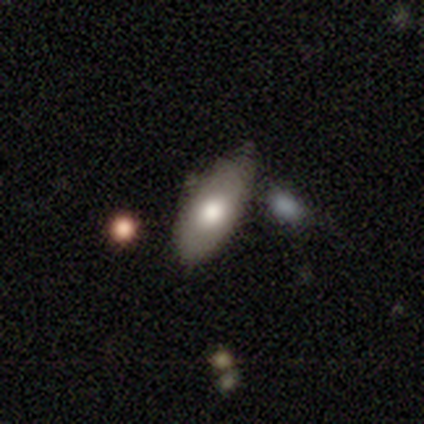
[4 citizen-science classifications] smooth 50%, featured or disk 25%, star or artifact 25%. Down the decision tree: how rounded — in between (100%); merging — none (67%).